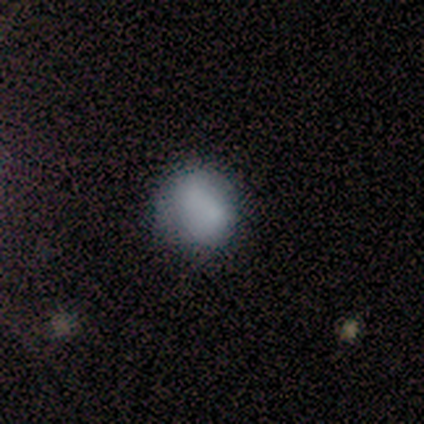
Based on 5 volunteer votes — A smooth galaxy with no disk features (100%) that is round (100%).

Vote fractions:
- Smooth or featured? smooth: 100% / featured or disk: 0% / star or artifact: 0%
- How rounded? round: 100% / in between: 0% / cigar-shaped: 0%
- Merging? none: 80% / major disturbance: 20% / minor disturbance: 0% / merger: 0%